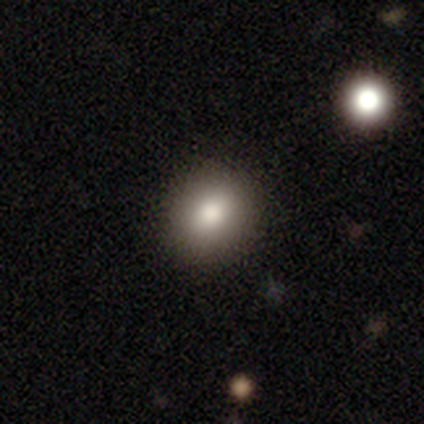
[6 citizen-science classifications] Smooth or featured? smooth (67%)
How rounded? round (50%, tied with in between)
Merging? none (75%)